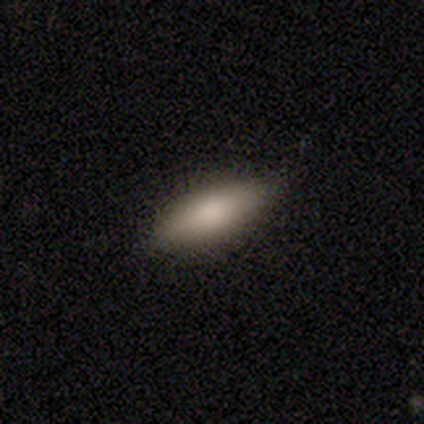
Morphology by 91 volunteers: Volunteers were most divided on "how rounded": in between: 62%, cigar-shaped: 37%, round: 1%. More confident: smooth or featured — smooth (89%); merging — none (84%).